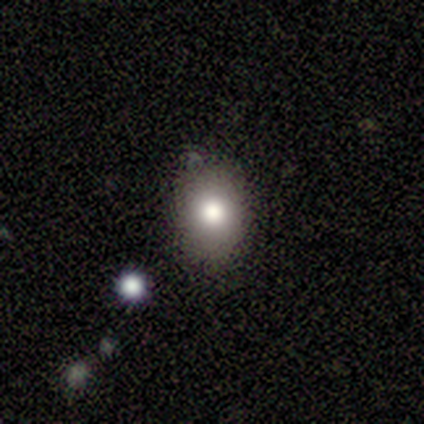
Smooth or featured? smooth (74%)
How rounded? in between (57%)
Merging? none (78%)